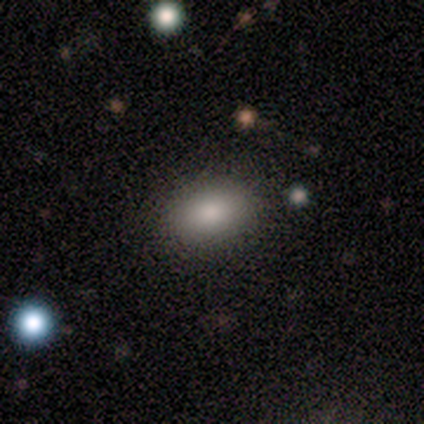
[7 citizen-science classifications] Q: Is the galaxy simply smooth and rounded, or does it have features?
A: smooth — 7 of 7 (100%).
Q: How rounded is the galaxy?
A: in between — 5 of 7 (71%).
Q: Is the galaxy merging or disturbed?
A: none — 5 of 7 (71%).